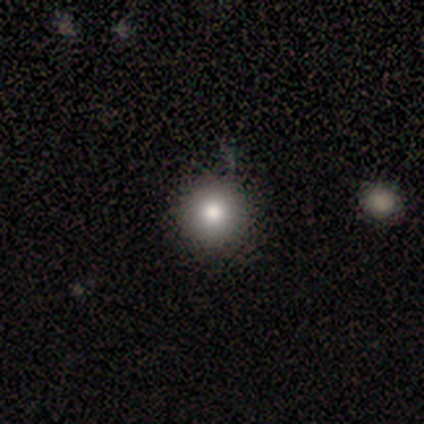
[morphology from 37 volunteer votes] smooth 73%, featured or disk 16%, star or artifact 11%. Down the decision tree: how rounded — round (100%); merging — none (73%).